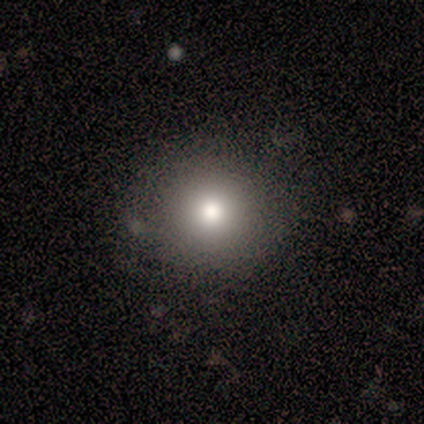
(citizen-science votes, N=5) Smooth or featured? smooth (100%)
How rounded? round (100%)
Merging? none (100%)